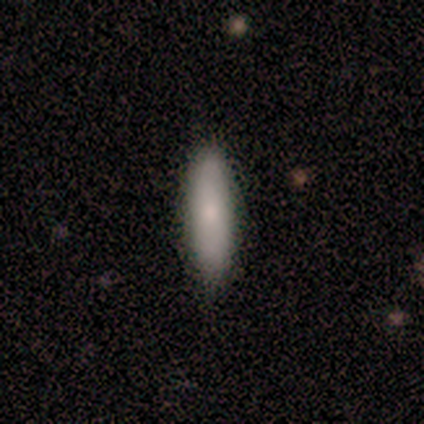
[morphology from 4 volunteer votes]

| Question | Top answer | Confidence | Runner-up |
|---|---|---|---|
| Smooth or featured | smooth | 75% | star or artifact (25%) |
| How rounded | cigar-shaped | 100% | — |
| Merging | none | 67% | minor disturbance (33%) |